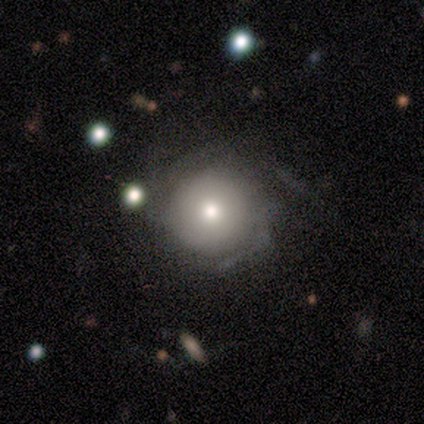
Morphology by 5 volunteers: type=smooth (60%); roundness=round (100%); merging=none (80%).